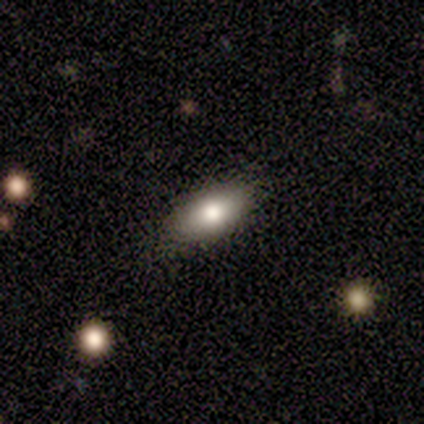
Smooth or featured? smooth (100%)
How rounded? in between (75%)
Merging? none (75%)